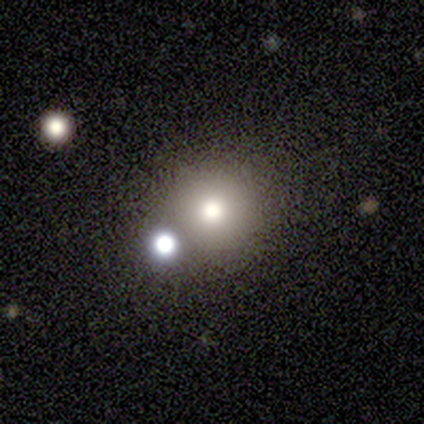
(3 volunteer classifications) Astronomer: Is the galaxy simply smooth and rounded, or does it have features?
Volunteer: smooth — 100%.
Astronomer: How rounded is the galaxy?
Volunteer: round — 100%.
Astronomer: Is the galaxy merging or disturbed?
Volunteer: none — 100%.